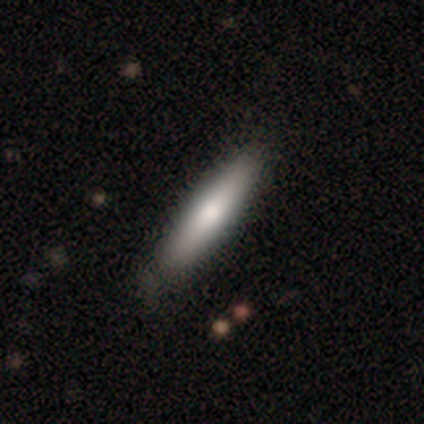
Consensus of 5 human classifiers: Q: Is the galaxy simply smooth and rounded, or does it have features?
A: smooth — 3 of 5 (60%).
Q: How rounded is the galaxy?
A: cigar-shaped — 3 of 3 (100%).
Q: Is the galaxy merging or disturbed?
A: none — 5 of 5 (100%).